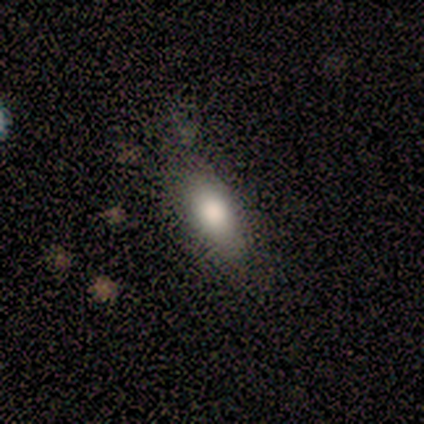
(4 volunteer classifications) A smooth galaxy with no disk features (75%) that is in between round and cigar-shaped (100%). Merging: none (50%).